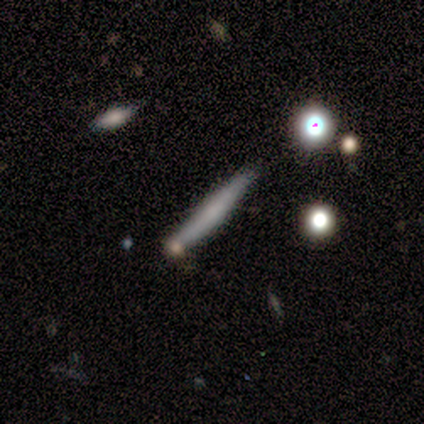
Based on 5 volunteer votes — This appears to be a smooth galaxy with no disk features (80%) that is cigar-shaped (100%). Merging: none (100%).